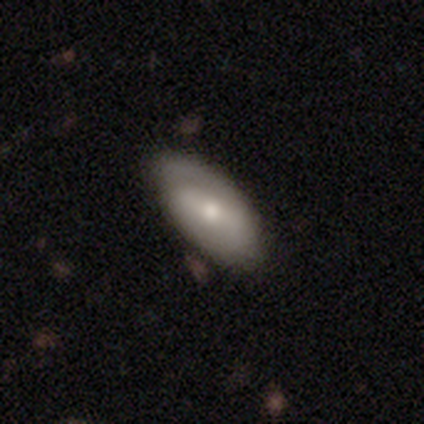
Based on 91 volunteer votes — smooth_or_featured: smooth (p=0.52) [alt: featured or disk p=0.42]
how_rounded: in between (p=0.94) [alt: cigar-shaped p=0.06]
merging: none (p=0.66) [alt: minor disturbance p=0.28]